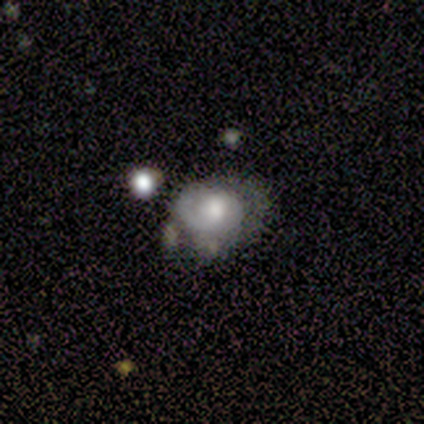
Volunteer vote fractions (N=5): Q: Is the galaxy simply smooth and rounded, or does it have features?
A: featured or disk — 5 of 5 (100%).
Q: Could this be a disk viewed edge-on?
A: no — 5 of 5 (100%).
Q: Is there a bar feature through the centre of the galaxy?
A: no — 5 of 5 (100%).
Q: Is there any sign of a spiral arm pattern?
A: yes — 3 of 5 (60%).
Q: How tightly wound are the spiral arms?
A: tight — 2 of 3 (67%).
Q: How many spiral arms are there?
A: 1 — 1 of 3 (33%, tied with 2 and can't tell).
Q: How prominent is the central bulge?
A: moderate — 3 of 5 (60%).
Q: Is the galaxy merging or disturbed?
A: none — 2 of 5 (40%, tied with major disturbance).